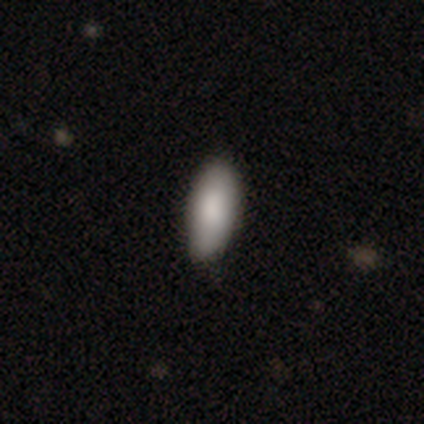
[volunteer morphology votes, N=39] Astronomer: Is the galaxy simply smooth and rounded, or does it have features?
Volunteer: smooth — 79%.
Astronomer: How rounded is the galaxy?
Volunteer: in between — 87%.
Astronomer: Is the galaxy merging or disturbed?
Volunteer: none — 89%.